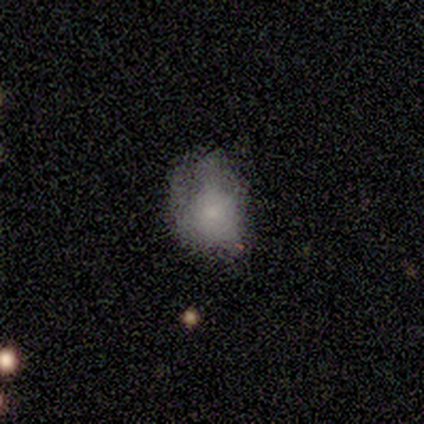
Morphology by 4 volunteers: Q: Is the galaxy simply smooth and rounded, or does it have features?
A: smooth — 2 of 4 (50%, tied with featured or disk).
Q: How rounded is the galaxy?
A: round — 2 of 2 (100%).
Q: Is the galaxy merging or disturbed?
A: minor disturbance — 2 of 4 (50%, tied with major disturbance).